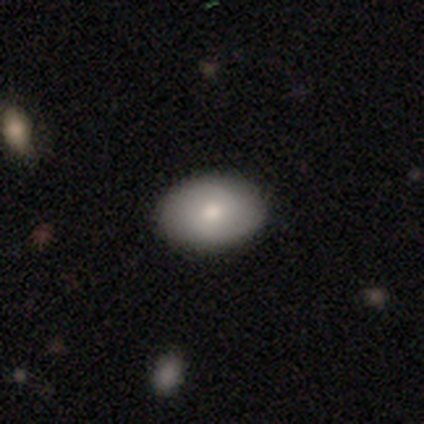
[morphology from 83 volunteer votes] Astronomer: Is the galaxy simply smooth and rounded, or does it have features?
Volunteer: smooth — 75%.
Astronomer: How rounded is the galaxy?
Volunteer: in between — 77%.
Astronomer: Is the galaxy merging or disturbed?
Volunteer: none — 95%.